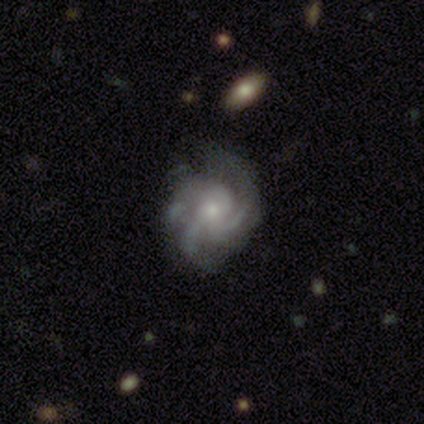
Smooth or featured? featured or disk (86%)
Edge-on disk? no (100%)
Bar? no (85%)
Spiral arms? yes (100%)
Spiral winding? medium (54%)
Spiral arm count? 3 (37%, tied with can't tell)
Bulge size? small (61%)
Merging? none (34%)